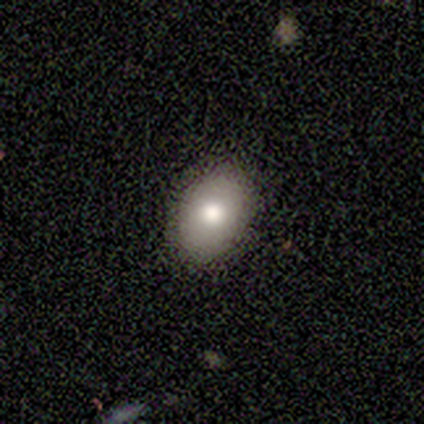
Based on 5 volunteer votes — Overall: smooth (80%). How rounded: in between (75%). Merging: none (100%).